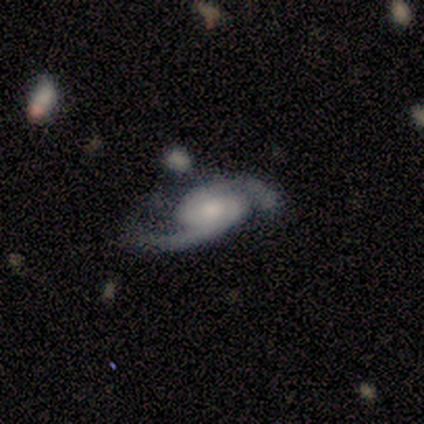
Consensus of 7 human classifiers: Overall: featured or disk (100%). Edge-on disk: no (86%). Bar: no (67%). Spiral arms: yes (100%). Spiral arm count: 2 (100%). Spiral winding: tight (50%; medium 33%). Bulge size: moderate (67%). Merging: none (86%).